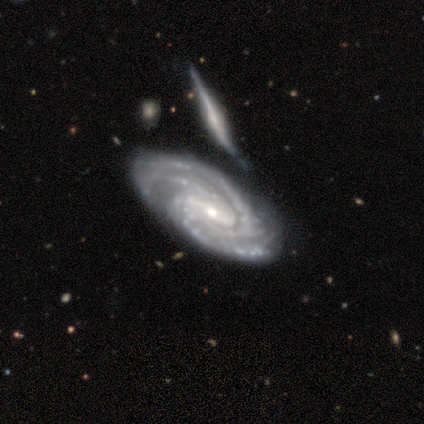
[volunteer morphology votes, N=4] smooth-or-featured: featured or disk: 75% | star or artifact: 25% | smooth: 0%
  disk-edge-on: no: 100% | yes: 0%
    bar: weak: 67% | strong: 33% | no: 0%
    has-spiral-arms: yes: 100% | no: 0%
      spiral-winding: tight: 67% | medium: 33% | loose: 0%
      spiral-arm-count: 2: 67% | 3: 33% | 1: 0% | 4: 0% | more than 4: 0% | can't tell: 0%
    bulge-size: moderate: 67% | small: 33% | dominant: 0% | large: 0% | none: 0%
  merging: none: 67% | minor disturbance: 33% | major disturbance: 0% | merger: 0%